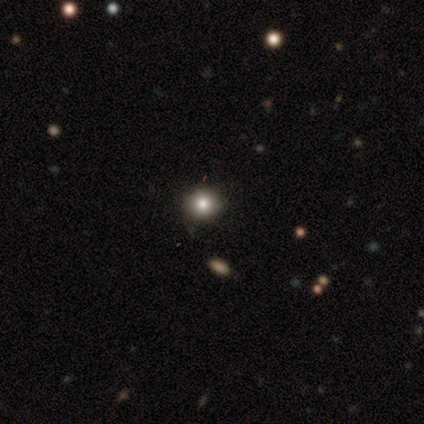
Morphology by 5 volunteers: Smooth or featured? 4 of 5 (80%) said smooth. How rounded? 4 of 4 (100%) said round. Merging? 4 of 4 (100%) said none.